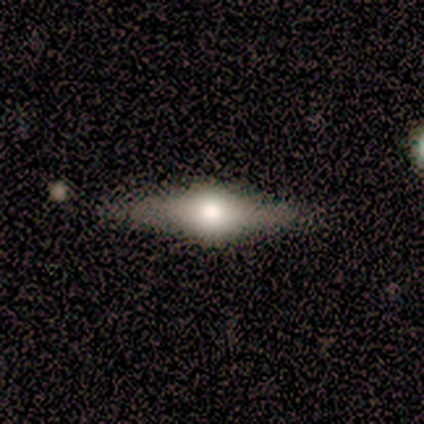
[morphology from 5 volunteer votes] Overall: featured or disk (60%; smooth 20%). Edge-on disk: yes (100%). Edge-on bulge: rounded (100%). Merging: none (100%).